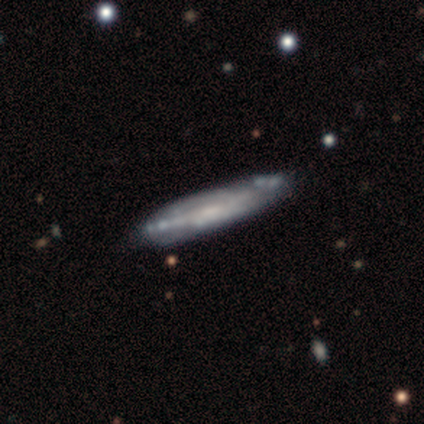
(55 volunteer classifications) A featured or disk galaxy (78%) viewed edge-on (53%) with no central bulge (57%).

Vote fractions:
- Smooth or featured? featured or disk: 78% / smooth: 16% / star or artifact: 5%
- Edge-on disk? yes: 53% / no: 47%
- Edge-on bulge? none: 57% / rounded: 26% / boxy: 17%
- Merging? none: 54% / minor disturbance: 35% / major disturbance: 6% / merger: 6%